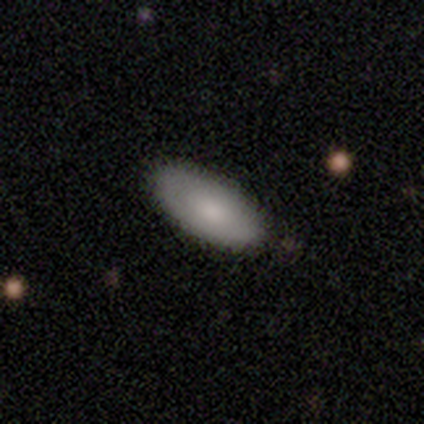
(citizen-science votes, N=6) This appears to be a smooth galaxy with no disk features (83%) that is in between round and cigar-shaped (80%). Merging: none (50%).